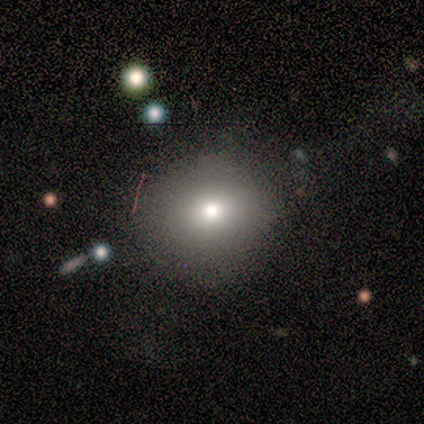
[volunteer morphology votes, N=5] smooth 100%, featured or disk 0%, star or artifact 0%. Down the decision tree: how rounded — round (100%); merging — none (60%).